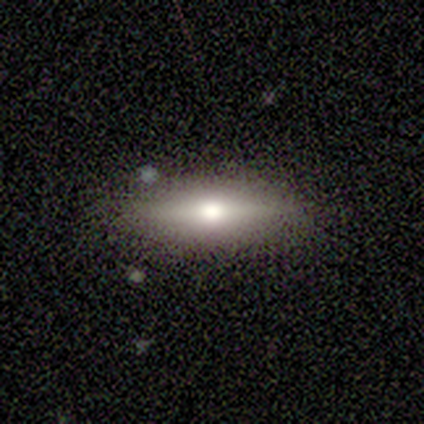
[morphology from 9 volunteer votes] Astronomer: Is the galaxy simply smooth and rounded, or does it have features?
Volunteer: featured or disk — 67%.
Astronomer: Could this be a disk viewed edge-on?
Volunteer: yes — 83%.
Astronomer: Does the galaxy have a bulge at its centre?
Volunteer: rounded — 100%.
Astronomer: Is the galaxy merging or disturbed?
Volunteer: none — 75%.